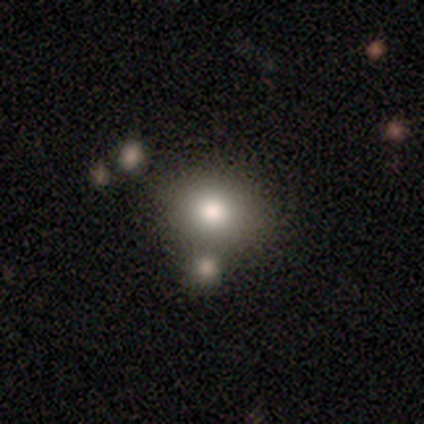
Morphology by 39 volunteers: smooth 69%, featured or disk 15%, star or artifact 15%. Down the decision tree: how rounded — in between (52%); merging — none (76%).